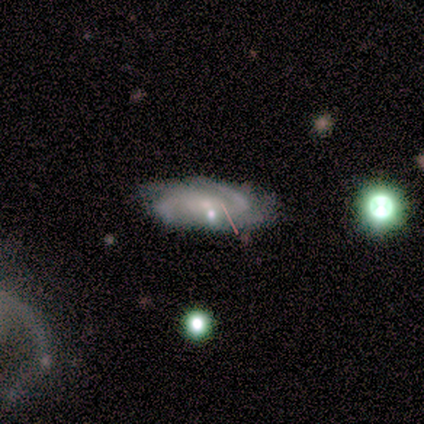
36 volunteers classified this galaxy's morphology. A featured or disk galaxy (69%) with no bar (71%), 4 (38%) medium (62%) spiral arms (88%) and a small central bulge (62%). Merging: none (57%).